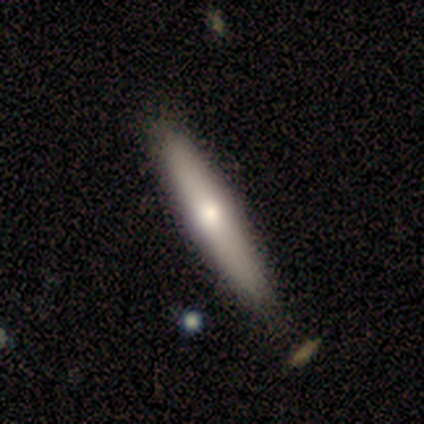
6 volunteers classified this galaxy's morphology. A smooth galaxy with no disk features (50%) that is cigar-shaped (67%). Merging: none (60%).